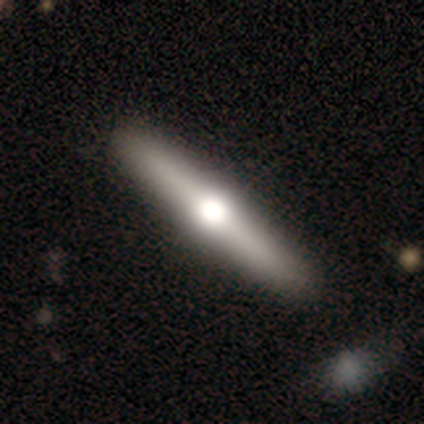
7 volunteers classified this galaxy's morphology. smooth_or_featured: smooth (p=0.57) [alt: featured or disk p=0.29]
how_rounded: cigar-shaped (p=0.75) [alt: in between p=0.25]
merging: none (p=0.67) [alt: minor disturbance p=0.17]